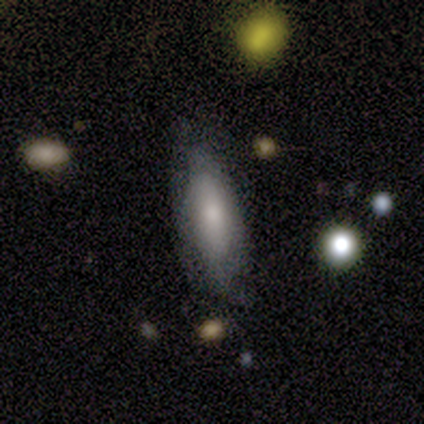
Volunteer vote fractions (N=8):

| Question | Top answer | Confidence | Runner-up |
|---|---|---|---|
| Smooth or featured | smooth | 62% | featured or disk (25%) |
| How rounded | cigar-shaped | 60% | in between (40%) |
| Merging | none | 71% | minor disturbance (14%) |